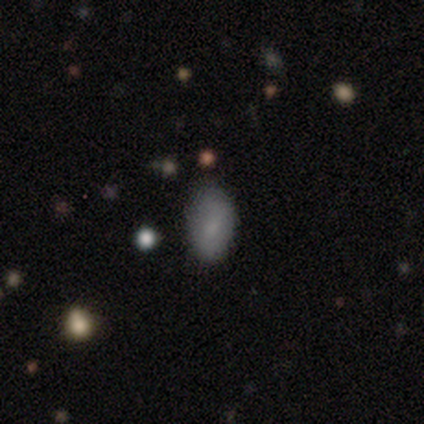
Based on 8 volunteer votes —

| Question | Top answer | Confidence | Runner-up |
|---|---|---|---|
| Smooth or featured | smooth | 88% | star or artifact (12%) |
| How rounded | in between | 86% | round (14%) |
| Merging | none | 71% | minor disturbance (29%) |